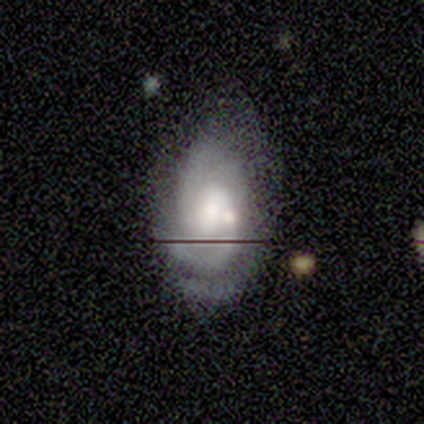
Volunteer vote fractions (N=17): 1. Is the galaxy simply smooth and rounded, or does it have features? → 71% featured or disk, 29% smooth, 0% star or artifact.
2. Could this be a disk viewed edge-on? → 92% no, 8% yes.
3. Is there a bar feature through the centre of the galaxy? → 55% weak, 27% no, 18% strong.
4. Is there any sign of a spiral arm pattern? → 91% yes, 9% no.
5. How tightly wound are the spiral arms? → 70% medium, 30% tight, 0% loose.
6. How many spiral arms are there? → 60% 2, 20% can't tell, 10% 1, 10% 3, 0% 4, 0% more than 4.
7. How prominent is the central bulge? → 45% moderate, 36% large, 18% small, 0% dominant, 0% none.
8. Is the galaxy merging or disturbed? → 53% none, 41% minor disturbance, 6% merger, 0% major disturbance.